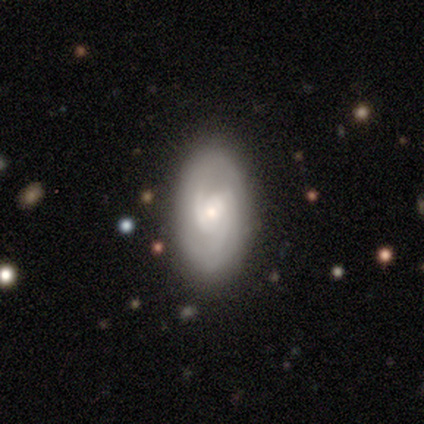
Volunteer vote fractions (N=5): A featured or disk galaxy (80%) with a weak bar (50%), 1 (33%, tied with 2 and can't tell) tight (33%, tied with medium and loose) spiral arms (75%) and a large central bulge (25%, tied with moderate, small and none).

Vote fractions:
- Smooth or featured? featured or disk: 80% / smooth: 20% / star or artifact: 0%
- Edge-on disk? no: 100% / yes: 0%
- Bar? weak: 50% / strong: 25% / no: 25%
- Spiral arms? yes: 75% / no: 25%
- Spiral winding? tight: 33% (tied) / medium: 33% (tied) / loose: 33% (tied)
- Spiral arm count? 1: 33% (tied) / 2: 33% (tied) / can't tell: 33% (tied) / 3: 0% / 4: 0% / more than 4: 0%
- Bulge size? large: 25% (tied) / moderate: 25% (tied) / small: 25% (tied) / none: 25% (tied) / dominant: 0%
- Merging? none: 100% / minor disturbance: 0% / major disturbance: 0% / merger: 0%